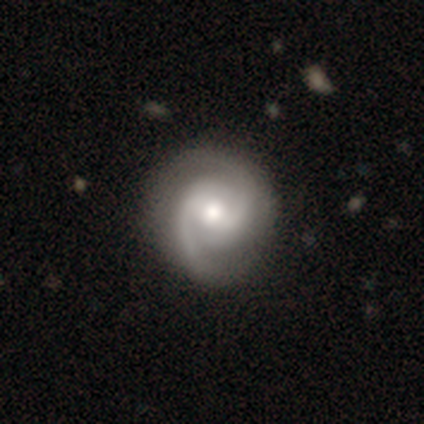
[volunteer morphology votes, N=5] smooth_or_featured: featured or disk (p=0.80) [alt: star or artifact p=0.20]
disk_edge_on: no (p=1.00)
bar: no (p=0.75) [alt: weak p=0.25]
has_spiral_arms: yes (p=0.75) [alt: no p=0.25]
spiral_winding: medium (p=0.67) [alt: loose p=0.33]
spiral_arm_count: can't tell (p=0.67) [alt: 2 p=0.33]
bulge_size: moderate (p=0.50) [tied with: small p=0.50]
merging: none (p=1.00)